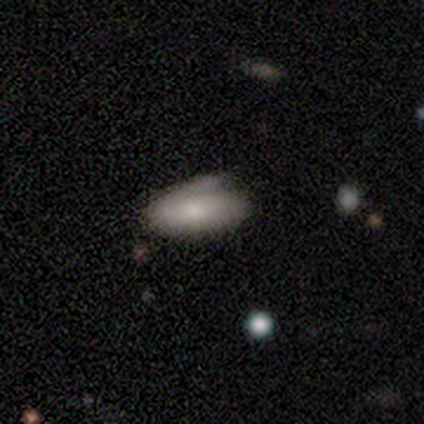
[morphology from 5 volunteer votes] A featured or disk galaxy (60%) with no bar (100%), 1 (100%) tight (50%, tied with loose) spiral arms (100%) and a moderate central bulge (50%, tied with small). Merging: minor disturbance (60%).